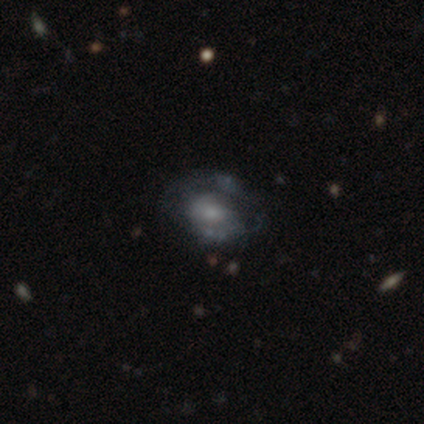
Morphology: type=featured or disk (77%); edge-on=no (100%); bar=no (57%); spiral arms=yes (60%); winding=tight (44%); arm count=2 (50%); bulge=small (57%); merging=none (43%).